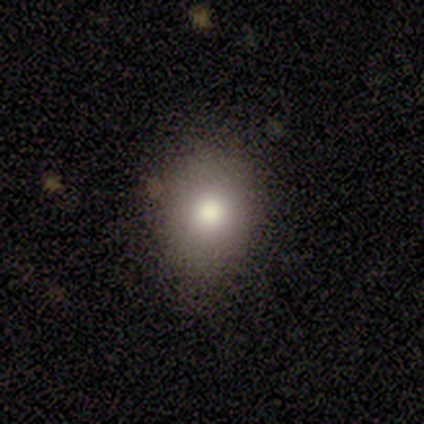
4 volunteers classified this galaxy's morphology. smooth-or-featured: smooth: 100% | featured or disk: 0% | star or artifact: 0%
  how-rounded: round: 75% | in between: 25% | cigar-shaped: 0%
  merging: none: 100% | minor disturbance: 0% | major disturbance: 0% | merger: 0%